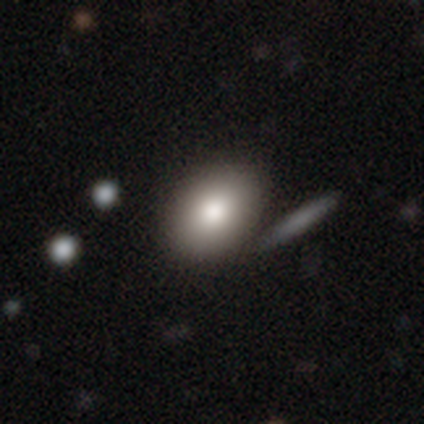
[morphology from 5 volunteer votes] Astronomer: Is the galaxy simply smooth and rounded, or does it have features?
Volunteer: smooth — 100%.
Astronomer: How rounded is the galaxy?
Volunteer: in between — 100%.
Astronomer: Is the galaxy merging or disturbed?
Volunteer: none — 100%.